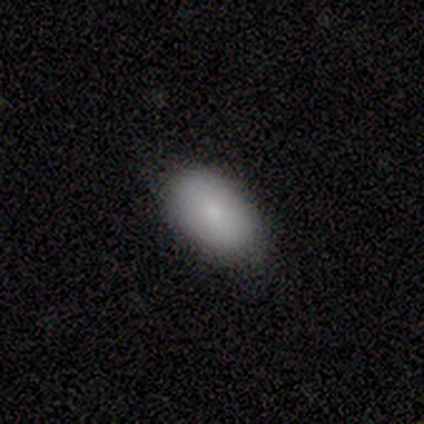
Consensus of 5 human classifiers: smooth_or_featured: smooth (p=0.80) [alt: featured or disk p=0.20]
how_rounded: in between (p=1.00)
merging: none (p=0.60) [alt: minor disturbance p=0.40]